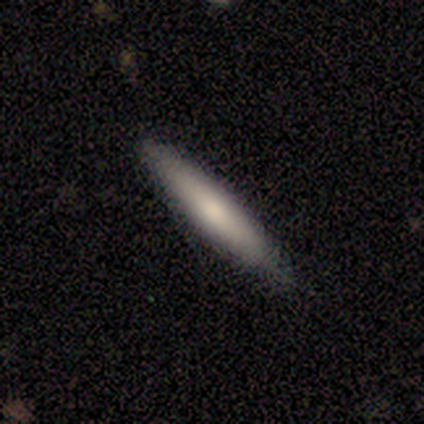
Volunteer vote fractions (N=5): Q: Smooth or featured?
A: smooth (80%); runner-up: featured or disk (20%)
Q: How rounded?
A: cigar-shaped (100%)
Q: Merging?
A: none (100%)